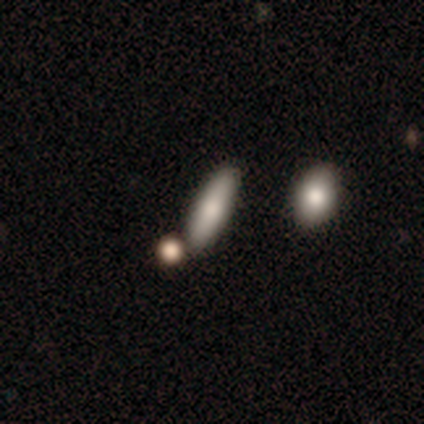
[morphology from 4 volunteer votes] Volunteers were most divided on "how rounded": in between: 50%, round: 25%, cigar-shaped: 25%. More confident: smooth or featured — smooth (100%); merging — none (75%).